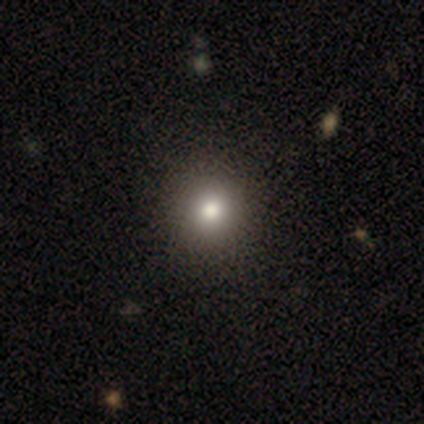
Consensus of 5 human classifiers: Overall: smooth (60%; star or artifact 40%). How rounded: round (100%). Merging: none (100%).